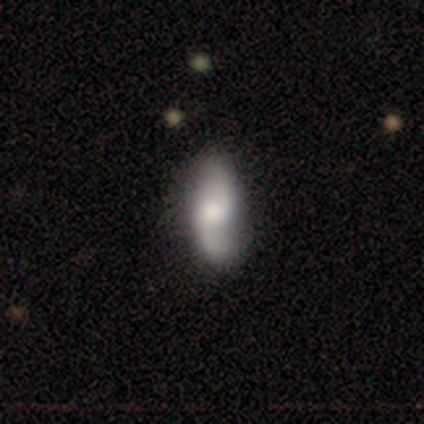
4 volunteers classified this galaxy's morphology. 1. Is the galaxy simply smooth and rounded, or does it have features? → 50% smooth (tied), 50% featured or disk (tied), 0% star or artifact.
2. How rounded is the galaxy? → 50% in between (tied), 50% cigar-shaped (tied), 0% round.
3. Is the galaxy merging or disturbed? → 75% none, 25% minor disturbance, 0% major disturbance, 0% merger.